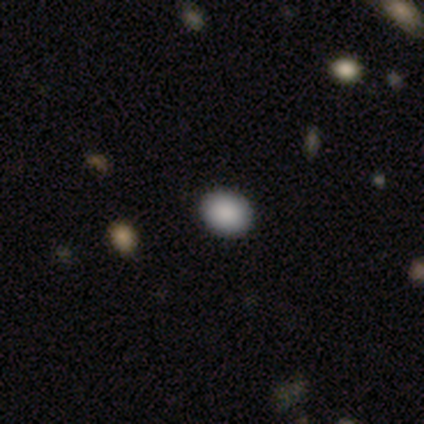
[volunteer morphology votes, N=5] A smooth galaxy with no disk features (100%) that is in between round and cigar-shaped (60%). Merging: none (100%).